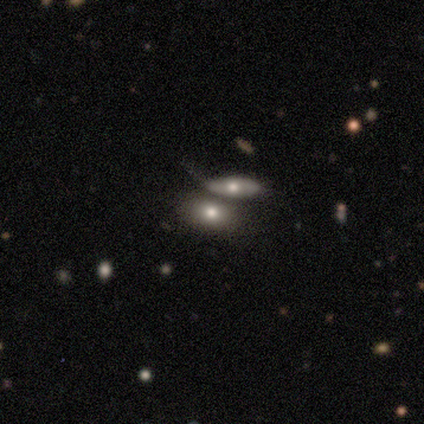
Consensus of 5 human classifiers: A smooth galaxy with no disk features (40%, tied with featured or disk) that is in between round and cigar-shaped (100%).

Vote fractions:
- Smooth or featured? smooth: 40% (tied) / featured or disk: 40% (tied) / star or artifact: 20%
- How rounded? in between: 100% / round: 0% / cigar-shaped: 0%
- Merging? merger: 75% / minor disturbance: 25% / none: 0% / major disturbance: 0%